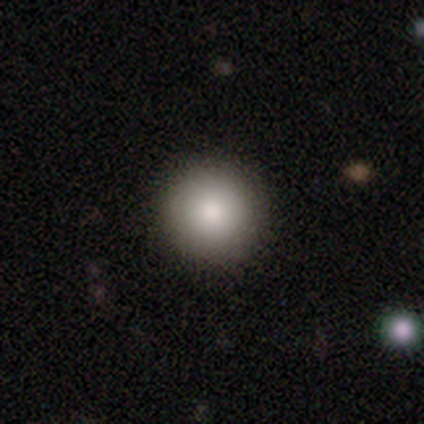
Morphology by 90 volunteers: This appears to be a smooth galaxy with no disk features (81%) that is round (97%). Merging: none (96%).